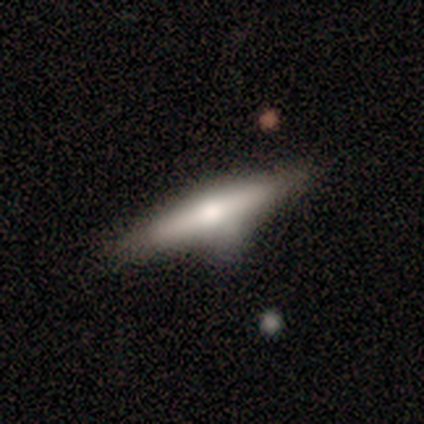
Smooth or featured?
  - featured or disk: 75% *
  - smooth: 25%
  - star or artifact: 0%
Edge-on disk?
  - yes: 100% *
  - no: 0%
Edge-on bulge?
  - rounded: 100% *
  - boxy: 0%
  - none: 0%
Merging?
  - minor disturbance: 75% *
  - none: 25%
  - major disturbance: 0%
  - merger: 0%